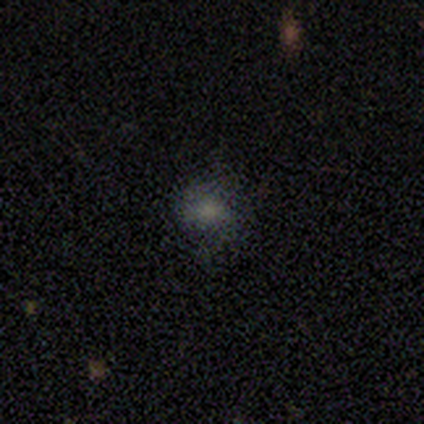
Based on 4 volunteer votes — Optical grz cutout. It shows a smooth galaxy with no disk features (50%, tied with featured or disk) that is round (100%). Merging: none (100%).